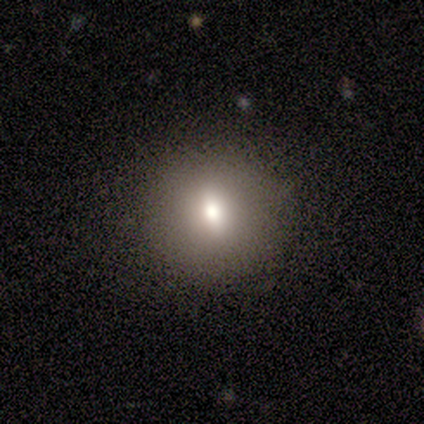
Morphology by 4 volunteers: A smooth galaxy with no disk features (50%, tied with featured or disk) that is round (100%).

Vote fractions:
- Smooth or featured? smooth: 50% (tied) / featured or disk: 50% (tied) / star or artifact: 0%
- How rounded? round: 100% / in between: 0% / cigar-shaped: 0%
- Merging? none: 100% / minor disturbance: 0% / major disturbance: 0% / merger: 0%